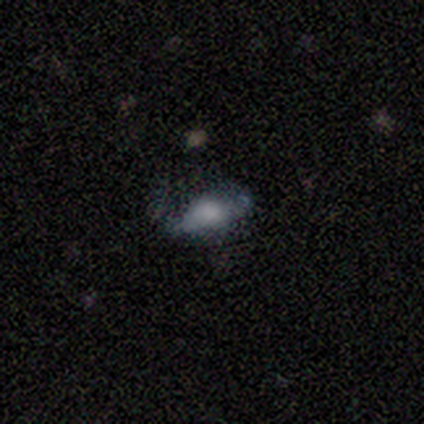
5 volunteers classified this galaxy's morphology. Smooth or featured? smooth (60%)
How rounded? in between (100%)
Merging? none (50%)